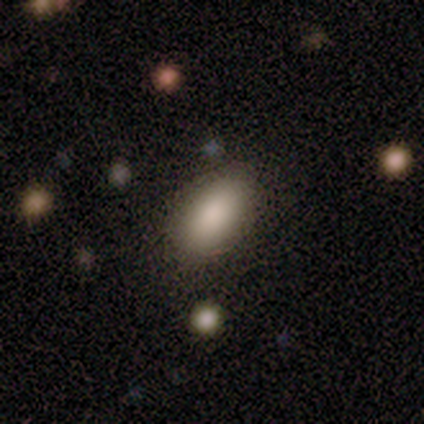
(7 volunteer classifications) A smooth galaxy with no disk features (100%) that is in between round and cigar-shaped (86%). Merging: none (100%).